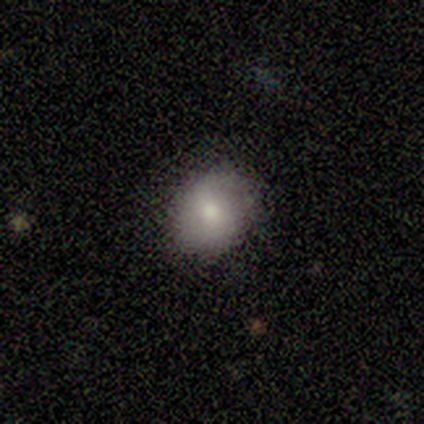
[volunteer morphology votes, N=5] This is clearly a smooth galaxy (100%). How rounded: clearly in between (100%). Merging: clearly none (100%).